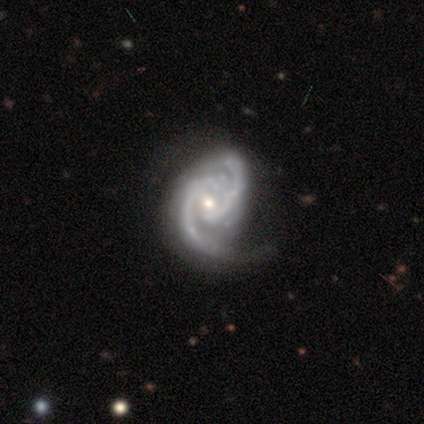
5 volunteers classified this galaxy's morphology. Smooth or featured? 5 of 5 (100%) said featured or disk. Edge-on disk? 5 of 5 (100%) said no. Bar? 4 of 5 (80%) said no. Spiral arms? 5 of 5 (100%) said yes. Spiral winding? 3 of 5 (60%) said medium. Spiral arm count? 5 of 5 (100%) said 2. Bulge size? 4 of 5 (80%) said moderate. Merging? 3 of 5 (60%) said none.